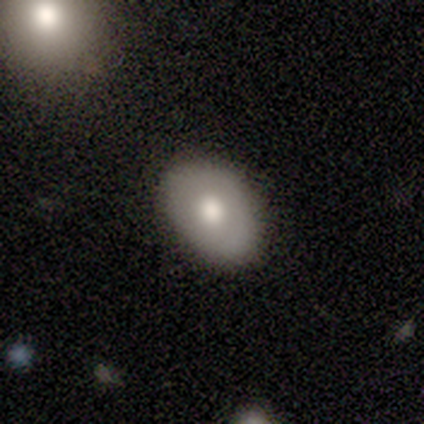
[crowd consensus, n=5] smooth_or_featured: smooth (p=0.60) [alt: featured or disk p=0.40]
how_rounded: in between (p=1.00)
merging: none (p=0.80) [alt: minor disturbance p=0.20]